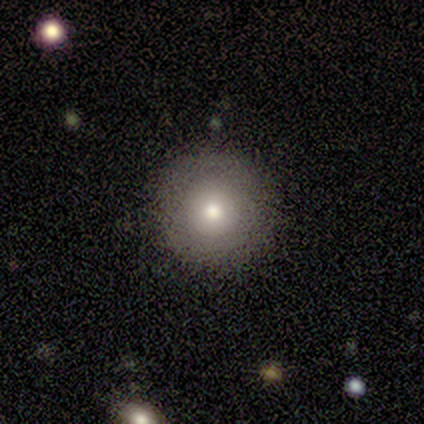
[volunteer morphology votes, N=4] smooth-or-featured: featured or disk: 75% | star or artifact: 25% | smooth: 0%
  disk-edge-on: no: 100% | yes: 0%
    bar: no: 100% | strong: 0% | weak: 0%
    has-spiral-arms: no: 100% | yes: 0%
    bulge-size: large: 67% | moderate: 33% | dominant: 0% | small: 0% | none: 0%
  merging: none: 67% | minor disturbance: 33% | major disturbance: 0% | merger: 0%